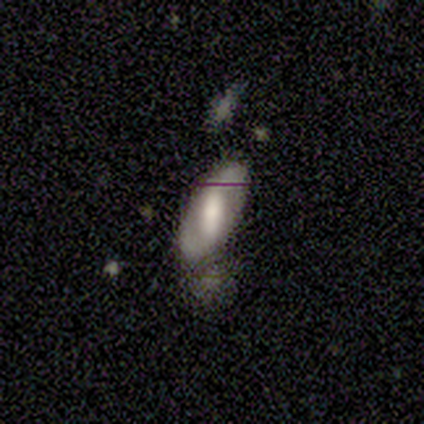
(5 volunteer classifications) smooth_or_featured: smooth (p=0.40) [tied with: featured or disk p=0.40]
how_rounded: in between (p=1.00)
merging: minor disturbance (p=1.00)